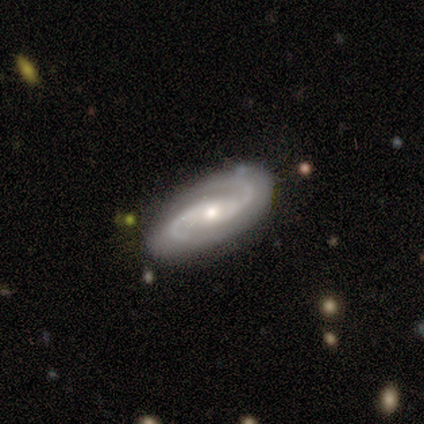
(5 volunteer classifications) smooth-or-featured: featured or disk: 100% | smooth: 0% | star or artifact: 0%
  disk-edge-on: no: 100% | yes: 0%
    bar: no: 60% | weak: 40% | strong: 0%
    has-spiral-arms: yes: 100% | no: 0%
      spiral-winding: medium: 60% | tight: 40% | loose: 0%
      spiral-arm-count: 2: 100% | 1: 0% | 3: 0% | 4: 0% | more than 4: 0% | can't tell: 0%
    bulge-size: moderate: 80% | small: 20% | dominant: 0% | large: 0% | none: 0%
  merging: none: 100% | minor disturbance: 0% | major disturbance: 0% | merger: 0%